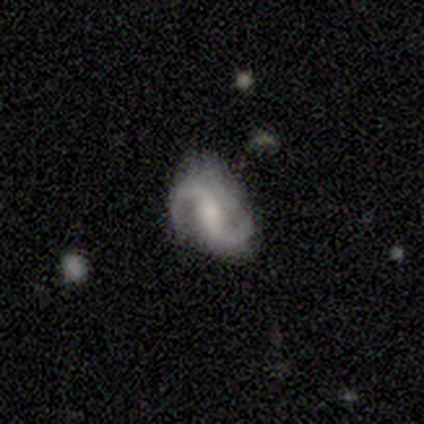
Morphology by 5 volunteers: smooth-or-featured: featured or disk: 100% | smooth: 0% | star or artifact: 0%
  disk-edge-on: no: 100% | yes: 0%
    bar: strong: 60% | weak: 20% | no: 20%
    has-spiral-arms: yes: 80% | no: 20%
      spiral-winding: loose: 75% | medium: 25% | tight: 0%
      spiral-arm-count: 2: 100% | 1: 0% | 3: 0% | 4: 0% | more than 4: 0% | can't tell: 0%
    bulge-size: moderate: 80% | none: 20% | dominant: 0% | large: 0% | small: 0%
  merging: none: 80% | minor disturbance: 20% | major disturbance: 0% | merger: 0%